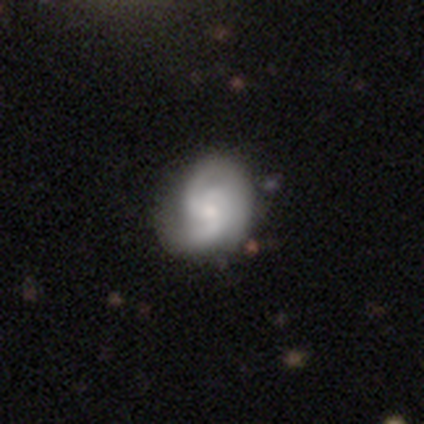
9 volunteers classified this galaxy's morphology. Smooth or featured? featured or disk (78%)
Edge-on disk? no (100%)
Bar? no (71%)
Spiral arms? yes (100%)
Spiral winding? medium (57%)
Spiral arm count? 2 (71%)
Bulge size? moderate (57%)
Merging? none (71%)